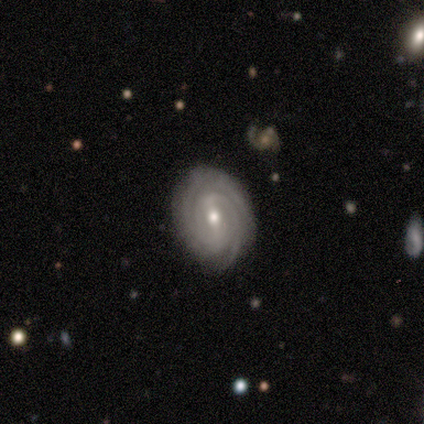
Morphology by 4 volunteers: Overall: featured or disk (100%). Edge-on disk: no (100%). Bar: no (75%). Spiral arms: yes (100%). Spiral arm count: can't tell (50%; 2 25%). Spiral winding: tight (75%). Bulge size: moderate (50%, tied with small). Merging: none (100%).